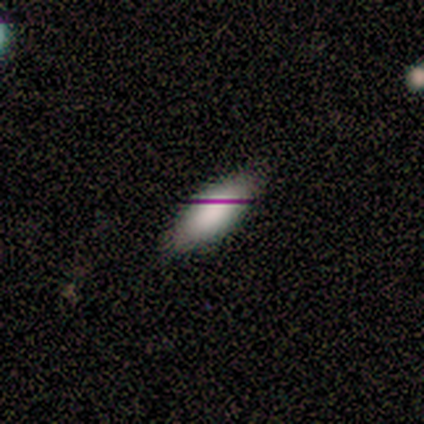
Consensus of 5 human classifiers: Volunteers were most divided on "smooth or featured": smooth: 80%, star or artifact: 20%, featured or disk: 0%. More confident: how rounded — in between (100%); merging — none (100%).